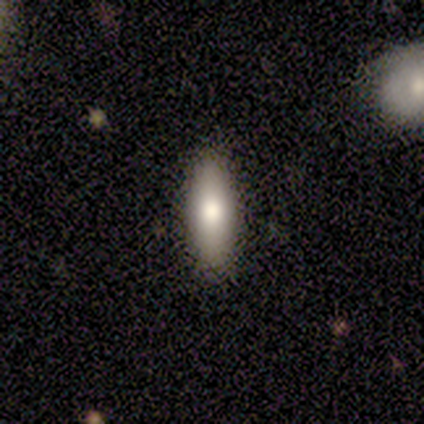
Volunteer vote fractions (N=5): Smooth or featured? smooth (100%)
How rounded? in between (60%)
Merging? none (100%)